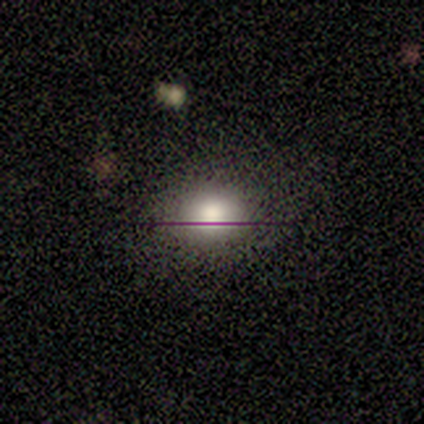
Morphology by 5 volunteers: This is likely a smooth galaxy (60%). How rounded: likely round (67%). Merging: possibly none (50%).